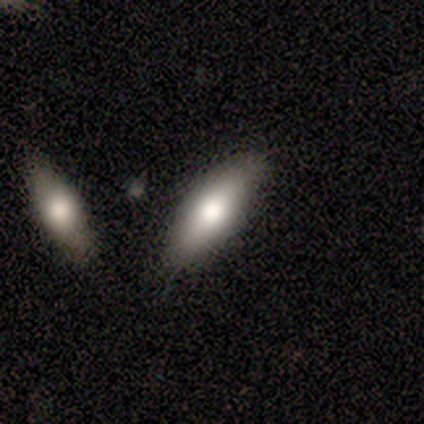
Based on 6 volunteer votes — This appears to be a smooth galaxy with no disk features (83%) that is in between round and cigar-shaped (80%). Merging: minor disturbance (60%).